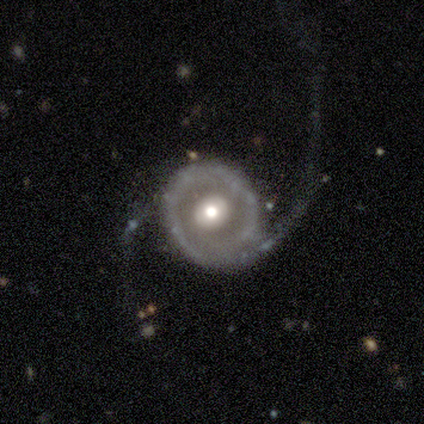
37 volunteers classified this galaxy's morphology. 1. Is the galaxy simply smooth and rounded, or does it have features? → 92% featured or disk, 8% smooth, 0% star or artifact.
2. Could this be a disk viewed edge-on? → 97% no, 3% yes.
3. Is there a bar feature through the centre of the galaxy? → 64% no, 27% weak, 9% strong.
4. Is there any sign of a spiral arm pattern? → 85% yes, 15% no.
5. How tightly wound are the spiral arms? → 54% loose, 39% medium, 7% tight.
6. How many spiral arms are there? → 89% 2, 11% 1, 0% 3, 0% 4, 0% more than 4, 0% can't tell.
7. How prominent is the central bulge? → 70% moderate, 21% large, 6% small, 3% dominant, 0% none.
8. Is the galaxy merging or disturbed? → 54% none, 30% major disturbance, 11% minor disturbance, 5% merger.